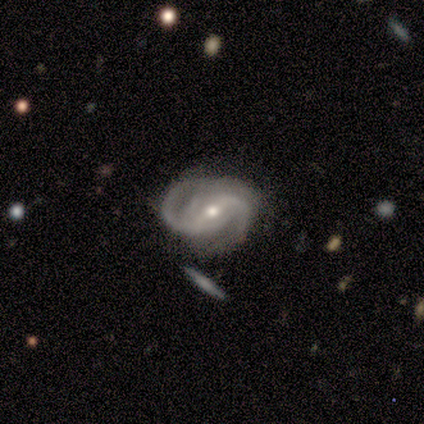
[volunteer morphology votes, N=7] Smooth or featured?
  - featured or disk: 100% *
  - smooth: 0%
  - star or artifact: 0%
Edge-on disk?
  - no: 86% *
  - yes: 14%
Bar?
  - strong: 50% * (tied)
  - weak: 50% * (tied)
  - no: 0%
Spiral arms?
  - yes: 100% *
  - no: 0%
Spiral winding?
  - tight: 33% * (tied)
  - medium: 33% * (tied)
  - loose: 33% * (tied)
Spiral arm count?
  - 2: 100% *
  - 1: 0%
  - 3: 0%
  - 4: 0%
  - more than 4: 0%
  - can't tell: 0%
Bulge size?
  - small: 67% *
  - moderate: 33%
  - dominant: 0%
  - large: 0%
  - none: 0%
Merging?
  - none: 57% *
  - minor disturbance: 29%
  - major disturbance: 14%
  - merger: 0%